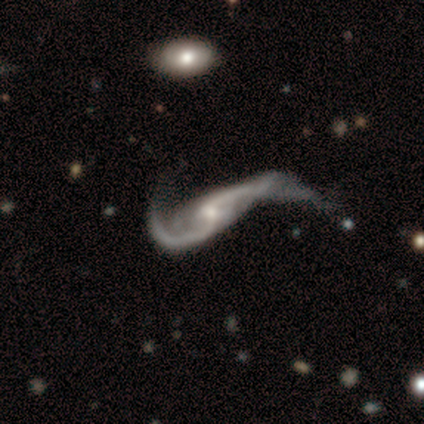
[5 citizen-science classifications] This is clearly a featured or disk galaxy (100%). It is clearly not viewed edge-on (80%). Bar: likely weak (75%). Spiral arm pattern: clearly yes (100%). Spiral arm count: clearly 2 (100%). Spiral winding: clearly loose (100%). Central bulge: clearly small (100%). Merging: likely major disturbance (60%).